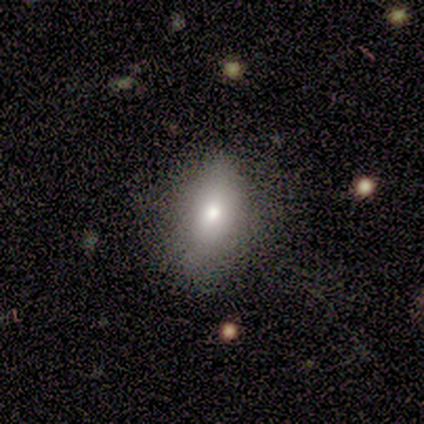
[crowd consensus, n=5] Smooth or featured? smooth (100%)
How rounded? in between (80%)
Merging? none (80%)